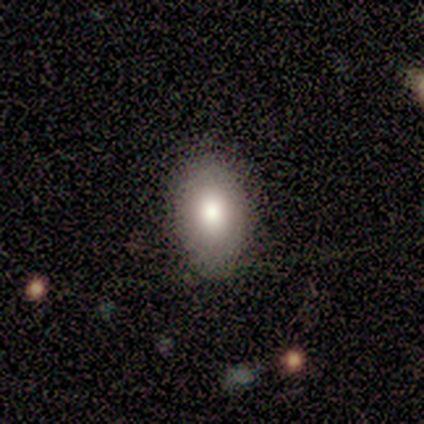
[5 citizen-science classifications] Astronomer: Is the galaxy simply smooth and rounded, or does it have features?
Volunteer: smooth — 80%.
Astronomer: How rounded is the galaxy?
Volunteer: in between — 100%.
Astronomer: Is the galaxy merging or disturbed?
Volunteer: none — 80%.